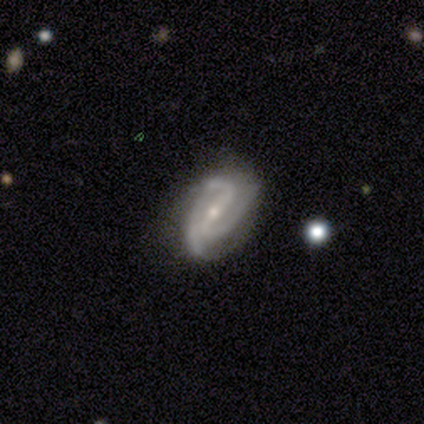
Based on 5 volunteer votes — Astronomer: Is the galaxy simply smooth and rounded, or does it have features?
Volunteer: smooth — 40%, tied with featured or disk at 40%.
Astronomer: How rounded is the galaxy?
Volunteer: in between — 100%.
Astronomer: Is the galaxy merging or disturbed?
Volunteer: none — 50%, tied with minor disturbance at 50%.